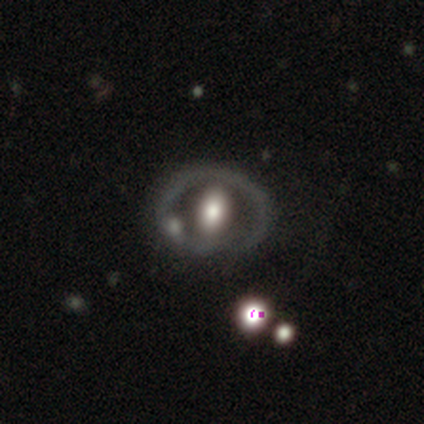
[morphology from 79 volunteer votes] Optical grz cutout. It shows a featured or disk galaxy (65%) with no bar (60%), no spiral arms (90%) and a large central bulge (44%). Merging: none (32%).